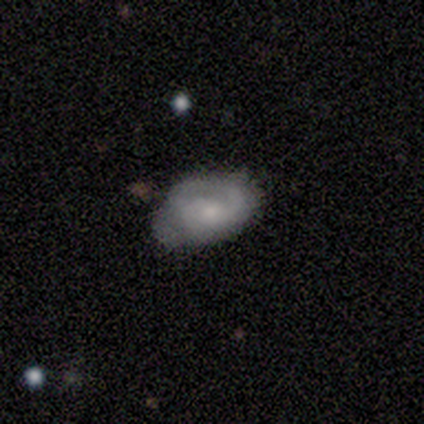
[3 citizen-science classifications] A featured or disk galaxy (100%) with no bar (67%), 1 (50%, tied with can't tell) tight (100%) spiral arms (67%) and a small central bulge (100%). Merging: none (100%).